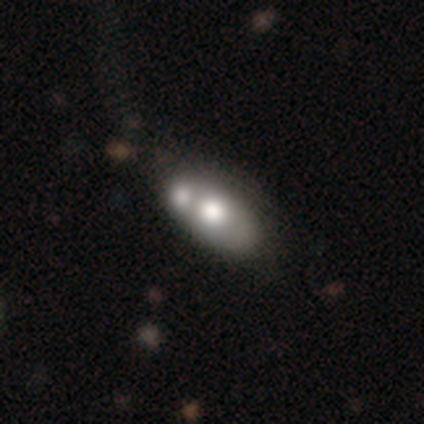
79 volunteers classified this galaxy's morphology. type=smooth (67%); roundness=in between (94%); merging=merger (40%).